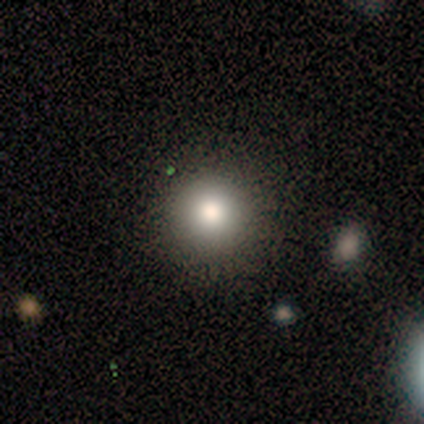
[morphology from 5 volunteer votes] type=smooth (60%); roundness=round (100%); merging=none (100%).